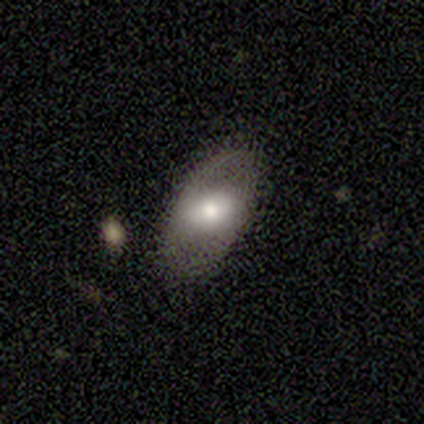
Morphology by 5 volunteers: Smooth or featured? smooth (80%)
How rounded? in between (75%)
Merging? none (80%)